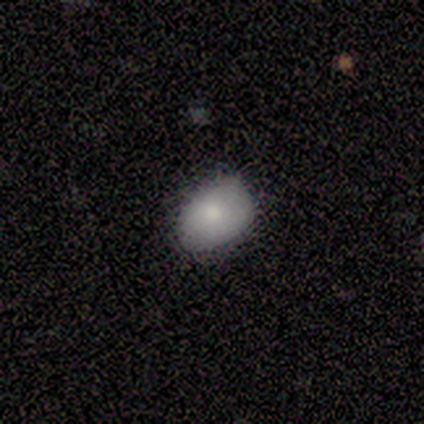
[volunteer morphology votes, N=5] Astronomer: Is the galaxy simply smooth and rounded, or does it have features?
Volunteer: smooth — 100%.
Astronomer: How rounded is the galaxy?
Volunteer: round — 80%.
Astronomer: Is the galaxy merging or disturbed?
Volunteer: none — 60% (runner-up: minor disturbance, 40%).